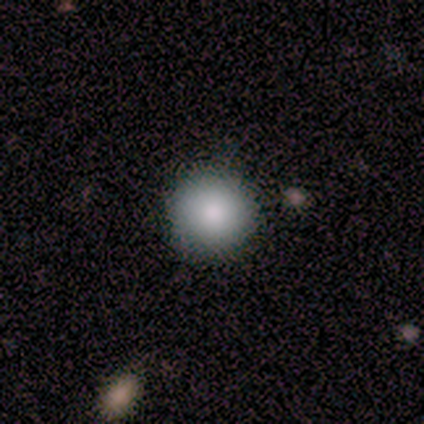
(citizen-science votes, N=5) A smooth galaxy with no disk features (100%) that is round (100%).

Vote fractions:
- Smooth or featured? smooth: 100% / featured or disk: 0% / star or artifact: 0%
- How rounded? round: 100% / in between: 0% / cigar-shaped: 0%
- Merging? none: 100% / minor disturbance: 0% / major disturbance: 0% / merger: 0%